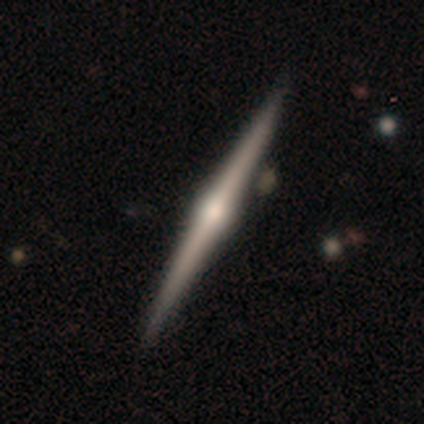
Consensus on every question: smooth or featured — featured or disk (100%); edge-on disk — yes (100%); edge-on bulge — rounded (100%); merging — none (100%).